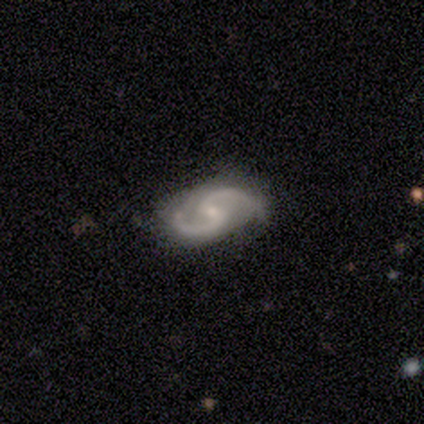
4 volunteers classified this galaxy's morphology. smooth-or-featured: featured or disk: 100% | smooth: 0% | star or artifact: 0%
  disk-edge-on: no: 100% | yes: 0%
    bar: no: 50% | strong: 25% | weak: 25%
    has-spiral-arms: yes: 100% | no: 0%
      spiral-winding: medium: 50% (tied) | loose: 50% (tied) | tight: 0%
      spiral-arm-count: 2: 100% | 1: 0% | 3: 0% | 4: 0% | more than 4: 0% | can't tell: 0%
    bulge-size: small: 75% | none: 25% | dominant: 0% | large: 0% | moderate: 0%
  merging: none: 100% | minor disturbance: 0% | major disturbance: 0% | merger: 0%